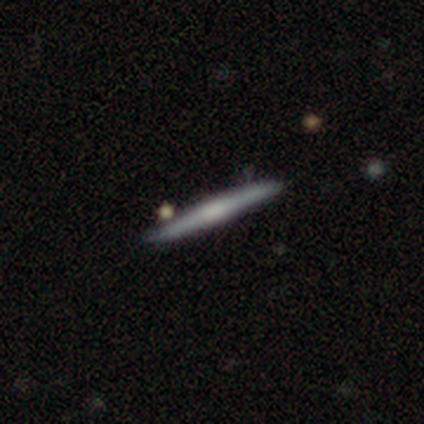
A smooth galaxy with no disk features (60%) that is cigar-shaped (100%). Merging: none (80%).